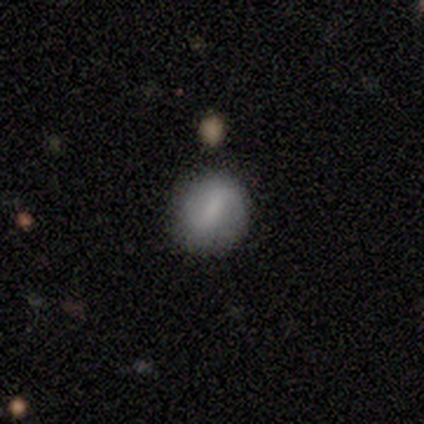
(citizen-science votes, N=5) Volunteers were most divided on "how rounded": round: 67%, in between: 33%, cigar-shaped: 0%. More confident: merging — none (75%); smooth or featured — smooth (60%).